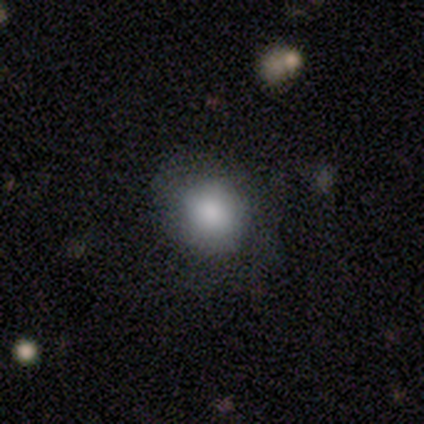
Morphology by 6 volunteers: A smooth galaxy with no disk features (100%) that is round (100%). Merging: none (83%).